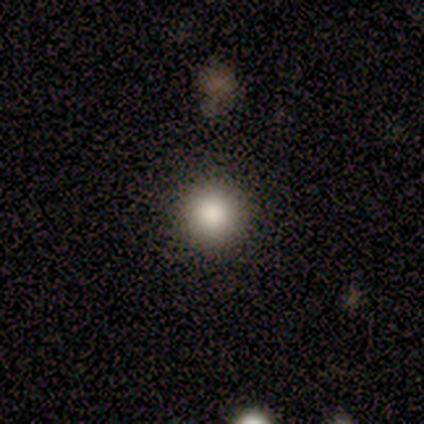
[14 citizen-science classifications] smooth 86%, featured or disk 7%, star or artifact 7%. Down the decision tree: how rounded — round (100%); merging — none (92%).